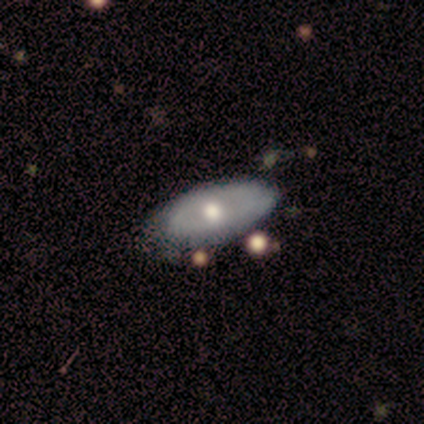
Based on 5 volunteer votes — Smooth or featured? 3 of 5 (60%) said featured or disk. Edge-on disk? 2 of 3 (67%) said no. Bar? 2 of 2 (100%) said no. Spiral arms? 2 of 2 (100%) said no. Bulge size? 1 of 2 (50%, tied with small) said large. Merging? 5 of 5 (100%) said none.